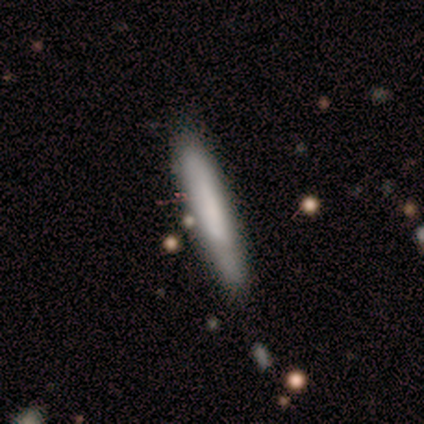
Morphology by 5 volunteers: smooth 80%, featured or disk 20%, star or artifact 0%. Down the decision tree: how rounded — cigar-shaped (75%); merging — none (80%).